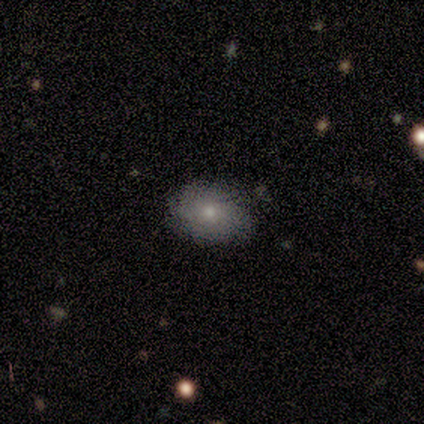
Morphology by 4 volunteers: Smooth or featured? featured or disk (75%)
Edge-on disk? no (100%)
Bar? no (100%)
Spiral arms? yes (67%)
Spiral winding? medium (50%, tied with loose)
Spiral arm count? can't tell (100%)
Bulge size? small (100%)
Merging? none (100%)